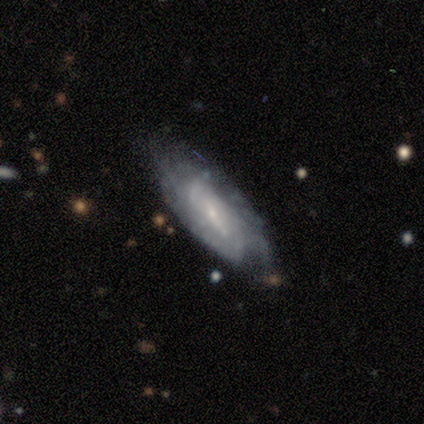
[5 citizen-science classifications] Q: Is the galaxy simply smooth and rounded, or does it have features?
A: featured or disk — 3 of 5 (60%).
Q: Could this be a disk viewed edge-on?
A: no — 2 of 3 (67%).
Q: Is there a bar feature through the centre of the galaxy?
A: weak — 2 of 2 (100%).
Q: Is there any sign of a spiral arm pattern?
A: yes — 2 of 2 (100%).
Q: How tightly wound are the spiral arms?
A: tight — 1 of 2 (50%, tied with medium).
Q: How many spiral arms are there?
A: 2 — 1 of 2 (50%, tied with can't tell).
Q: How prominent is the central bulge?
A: small — 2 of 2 (100%).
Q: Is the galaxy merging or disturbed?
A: none — 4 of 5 (80%).